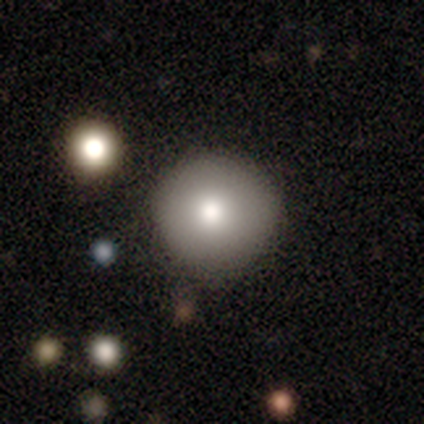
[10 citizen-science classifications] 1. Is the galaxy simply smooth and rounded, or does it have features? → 80% smooth, 20% featured or disk, 0% star or artifact.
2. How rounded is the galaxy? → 100% round, 0% in between, 0% cigar-shaped.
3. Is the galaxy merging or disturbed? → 80% none, 20% minor disturbance, 0% major disturbance, 0% merger.